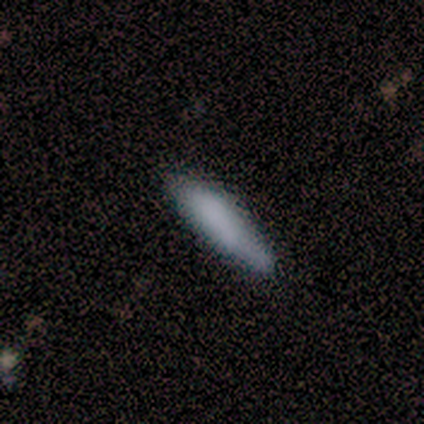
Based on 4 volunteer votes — Volunteers were most divided on "merging": none: 50%, minor disturbance: 25%, major disturbance: 25%, merger: 0%. More confident: smooth or featured — smooth (100%); how rounded — in between (75%).